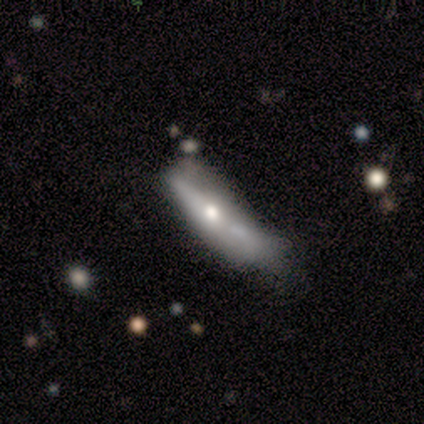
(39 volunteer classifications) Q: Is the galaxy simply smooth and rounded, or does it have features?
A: featured or disk — 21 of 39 (54%).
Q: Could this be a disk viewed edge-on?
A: yes — 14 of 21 (67%).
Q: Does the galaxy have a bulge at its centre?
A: rounded — 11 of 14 (79%).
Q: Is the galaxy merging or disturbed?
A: minor disturbance — 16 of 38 (42%).